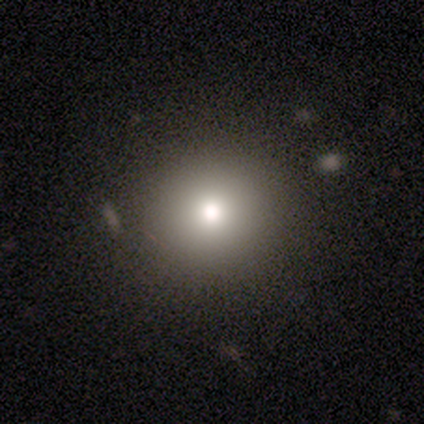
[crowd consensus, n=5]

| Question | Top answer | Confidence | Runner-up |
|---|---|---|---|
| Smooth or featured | smooth | 100% | — |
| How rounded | round | 80% | in between (20%) |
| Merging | none | 100% | — |